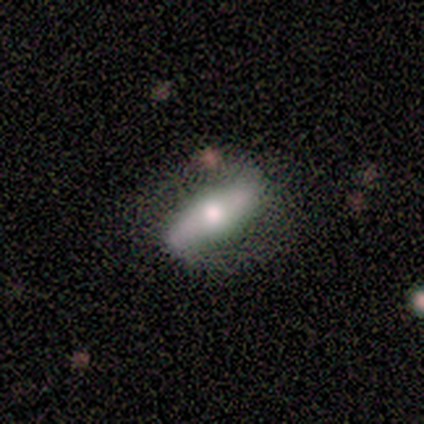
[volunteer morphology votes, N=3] type=featured or disk (67%); edge-on=yes (50%, tied with no); edge-on bulge=rounded (100%); merging=none (100%).